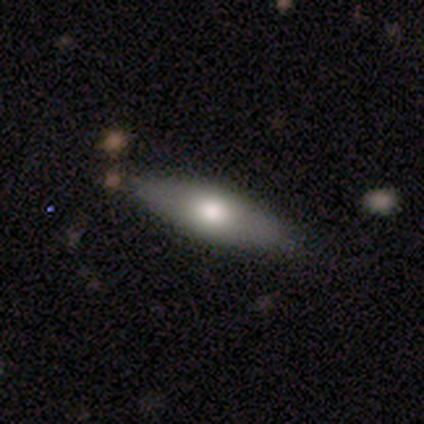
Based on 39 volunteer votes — Volunteers were most divided on "how rounded" (2-way tie): in between: 50%, cigar-shaped: 50%, round: 0%. More confident: merging — none (68%); smooth or featured — smooth (62%).